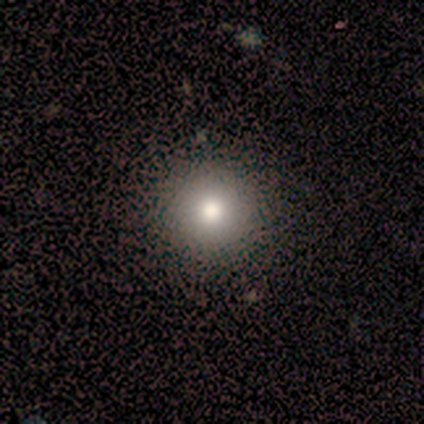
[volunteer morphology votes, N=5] Smooth or featured: smooth — 80% (featured or disk — 20%)
How rounded: round — 100%
Merging: none — 80% (merger — 20%)